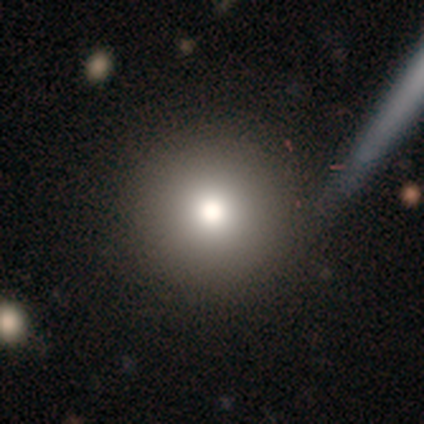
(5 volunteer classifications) smooth 80%, featured or disk 20%, star or artifact 0%. Down the decision tree: how rounded — round (100%); merging — none (100%).